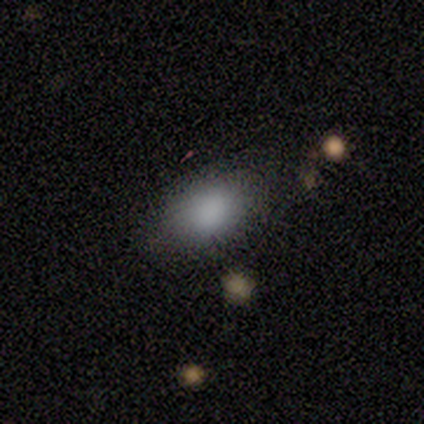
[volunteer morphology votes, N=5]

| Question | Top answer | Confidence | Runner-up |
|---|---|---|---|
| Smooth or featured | smooth | 80% | featured or disk (20%) |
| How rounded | in between | 100% | — |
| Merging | none | 80% | minor disturbance (20%) |